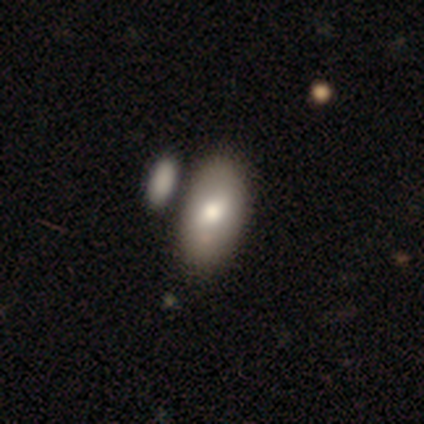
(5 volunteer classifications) smooth 60%, featured or disk 40%, star or artifact 0%. Down the decision tree: how rounded — in between (100%); merging — none (60%).